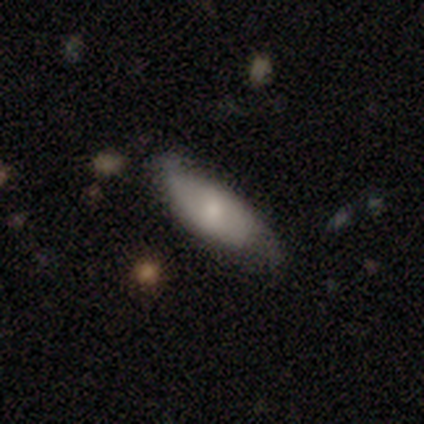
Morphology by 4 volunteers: Volunteers were most divided on "edge-on disk": yes: 67%, no: 33%. More confident: edge-on bulge — rounded (100%); smooth or featured — featured or disk (75%); merging — none (75%).